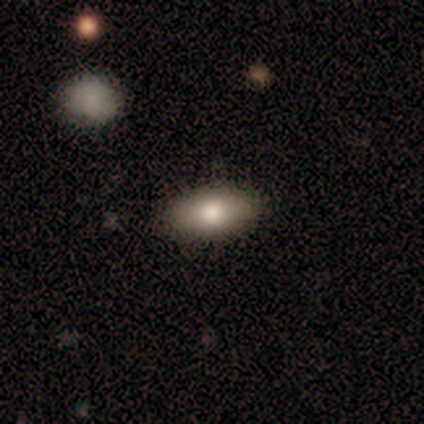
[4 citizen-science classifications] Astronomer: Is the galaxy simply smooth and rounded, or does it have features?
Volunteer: smooth — 100%.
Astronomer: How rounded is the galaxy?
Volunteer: in between — 100%.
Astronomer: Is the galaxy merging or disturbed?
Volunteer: none — 100%.